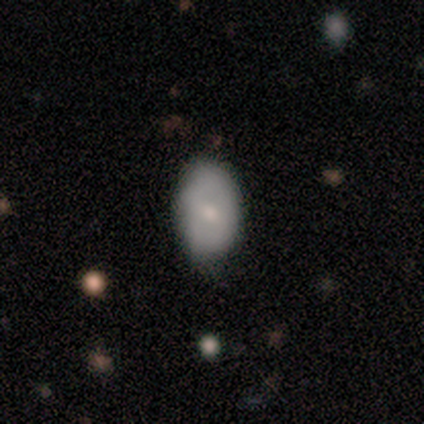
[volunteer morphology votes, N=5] Volunteers were most divided on "merging": none: 80%, minor disturbance: 20%, major disturbance: 0%, merger: 0%. More confident: smooth or featured — smooth (100%); how rounded — in between (100%).